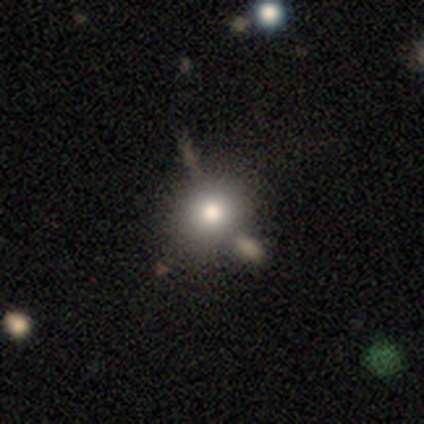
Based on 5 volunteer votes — Morphology: type=smooth (80%); roundness=round (100%); merging=none (75%).